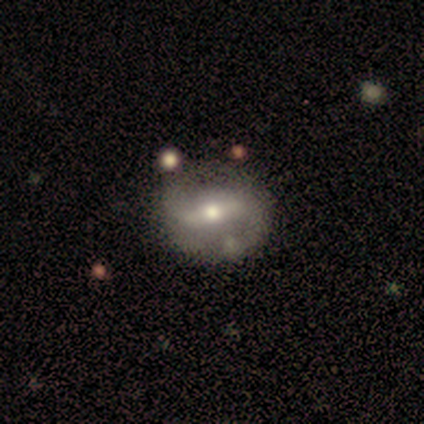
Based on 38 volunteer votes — Smooth or featured: featured or disk — 82% (smooth — 18%)
Edge-on disk: no — 94% (yes — 6%)
Bar: strong — 55% (weak — 34%)
Spiral arms: yes — 83% (no — 17%)
Spiral winding: medium — 50% (tied with loose — 50%)
Spiral arm count: 2 — 92% (1 — 8%)
Bulge size: moderate — 62% (small — 38%)
Merging: none — 61% (minor disturbance — 13%)